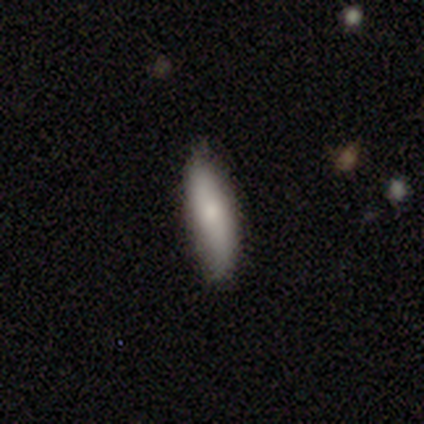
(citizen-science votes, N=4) Morphology: type=smooth (100%); roundness=in between (50%, tied with cigar-shaped); merging=none (100%).